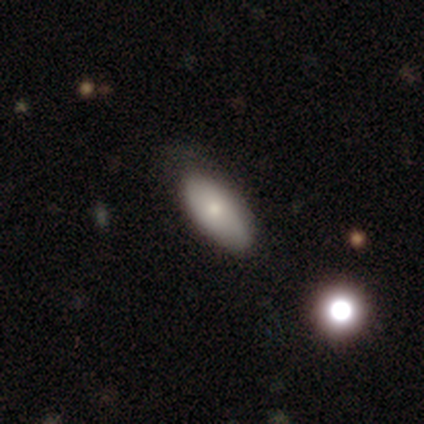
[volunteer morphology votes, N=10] smooth-or-featured: smooth: 80% | featured or disk: 20% | star or artifact: 0%
  how-rounded: in between: 88% | cigar-shaped: 12% | round: 0%
  merging: none: 90% | minor disturbance: 10% | major disturbance: 0% | merger: 0%